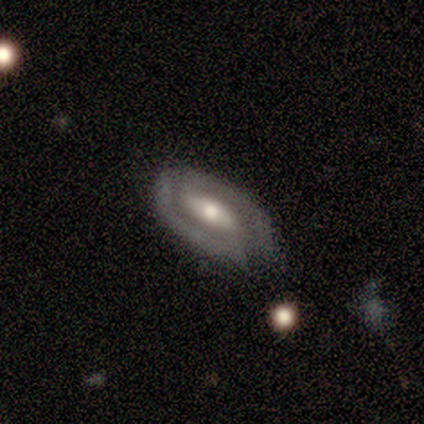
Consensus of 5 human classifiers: Volunteers were most divided on "spiral arms" (2-way tie): yes: 50%, no: 50%; "merging" (2-way tie): none: 40%, minor disturbance: 40%, merger: 20%, major disturbance: 0%. More confident: edge-on disk — no (100%); spiral winding — tight (100%); spiral arm count — 2 (100%); smooth or featured — featured or disk (80%); bulge size — small (75%); bar — weak (50%).